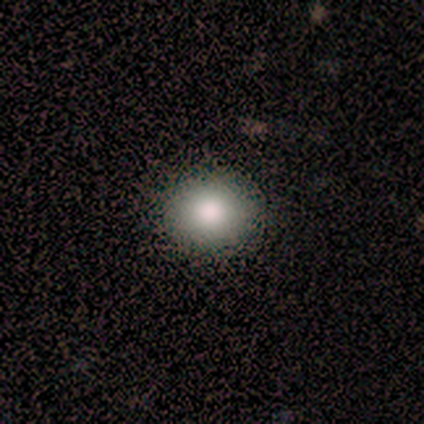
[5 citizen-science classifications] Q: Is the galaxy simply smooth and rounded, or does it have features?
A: smooth — 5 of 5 (100%).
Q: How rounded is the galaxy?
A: round — 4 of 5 (80%).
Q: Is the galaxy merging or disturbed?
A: none — 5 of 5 (100%).